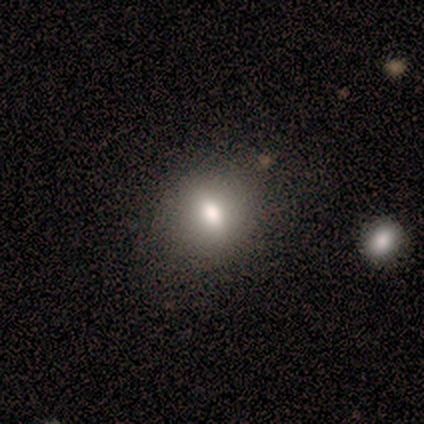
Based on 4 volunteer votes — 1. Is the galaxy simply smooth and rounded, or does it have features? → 75% smooth, 25% star or artifact, 0% featured or disk.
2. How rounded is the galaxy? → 67% round, 33% in between, 0% cigar-shaped.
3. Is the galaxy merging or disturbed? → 67% none, 33% minor disturbance, 0% major disturbance, 0% merger.